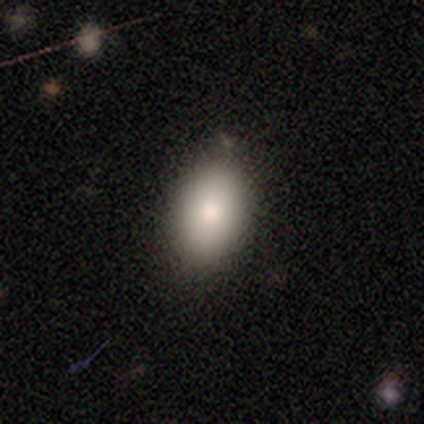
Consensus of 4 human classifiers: Overall: smooth (75%). How rounded: in between (67%; round 33%). Merging: none (33%, tied with minor disturbance and major disturbance).